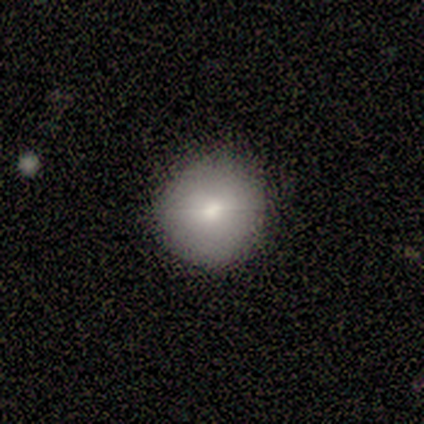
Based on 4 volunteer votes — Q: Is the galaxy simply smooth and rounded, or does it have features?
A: smooth — 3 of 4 (75%).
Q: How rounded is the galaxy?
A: round — 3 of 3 (100%).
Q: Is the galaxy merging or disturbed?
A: none — 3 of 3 (100%).